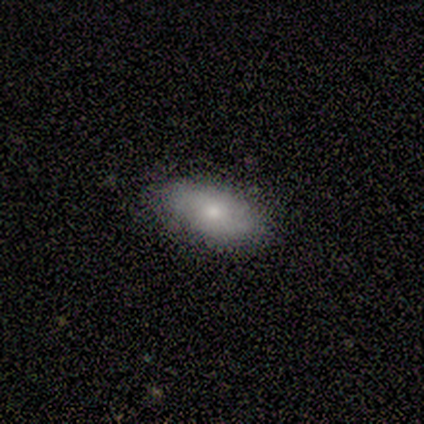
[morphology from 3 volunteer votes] smooth_or_featured: smooth (p=1.00)
how_rounded: in between (p=1.00)
merging: none (p=1.00)